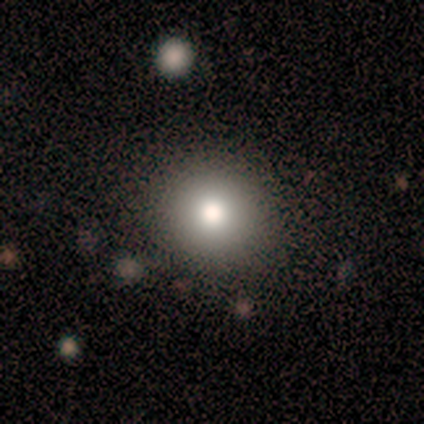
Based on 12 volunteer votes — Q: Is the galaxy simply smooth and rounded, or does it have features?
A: smooth — 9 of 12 (75%).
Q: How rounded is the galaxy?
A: round — 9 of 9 (100%).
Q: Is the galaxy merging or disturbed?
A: none — 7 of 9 (78%).